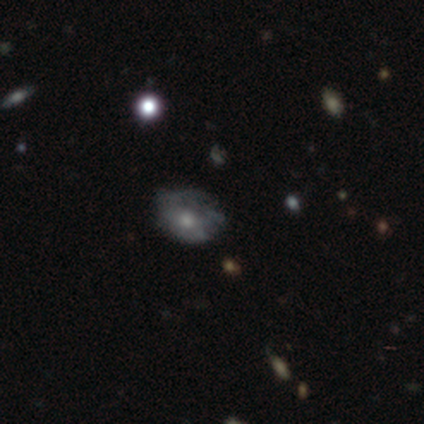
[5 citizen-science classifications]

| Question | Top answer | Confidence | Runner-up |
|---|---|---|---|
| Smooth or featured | smooth | 40% | tied: featured or disk (40%) |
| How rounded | in between | 100% | — |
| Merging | minor disturbance | 50% | none (25%) |